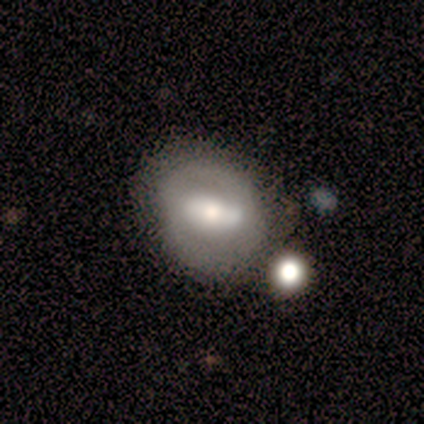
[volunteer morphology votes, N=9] smooth-or-featured: smooth: 44% (tied) | featured or disk: 44% (tied) | star or artifact: 11%
  how-rounded: in between: 75% | round: 25% | cigar-shaped: 0%
  merging: none: 88% | merger: 12% | minor disturbance: 0% | major disturbance: 0%